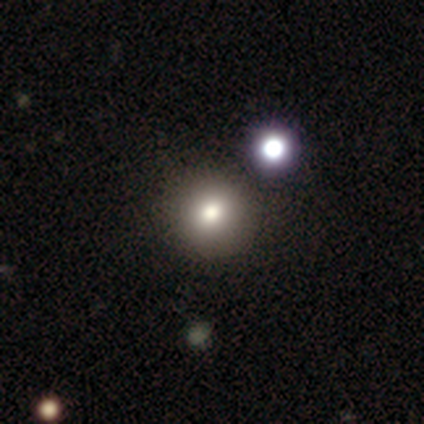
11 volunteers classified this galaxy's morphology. Smooth or featured?
  - smooth: 64% *
  - featured or disk: 18%
  - star or artifact: 18%
How rounded?
  - round: 100% *
  - in between: 0%
  - cigar-shaped: 0%
Merging?
  - none: 100% *
  - minor disturbance: 0%
  - major disturbance: 0%
  - merger: 0%